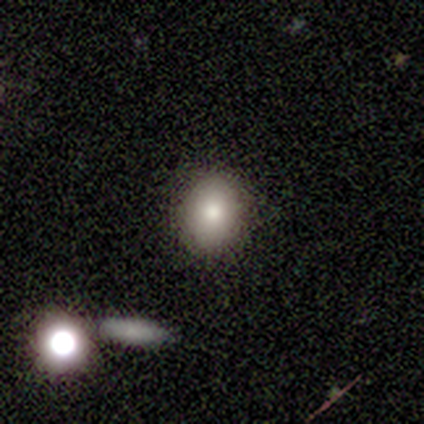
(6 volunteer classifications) Q: Smooth or featured?
A: smooth (83%); runner-up: star or artifact (17%)
Q: How rounded?
A: round (60%); runner-up: in between (40%)
Q: Merging?
A: none (80%); runner-up: minor disturbance (20%)